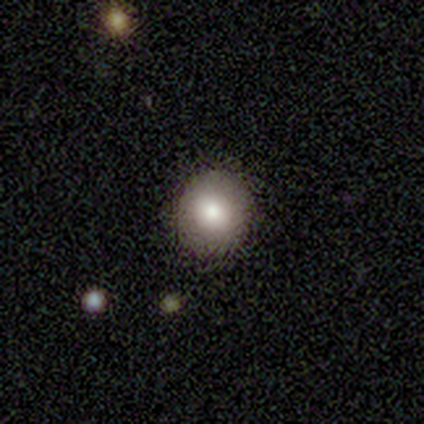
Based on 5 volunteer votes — Q: Smooth or featured?
A: smooth (100%)
Q: How rounded?
A: round (60%); runner-up: in between (40%)
Q: Merging?
A: none (100%)